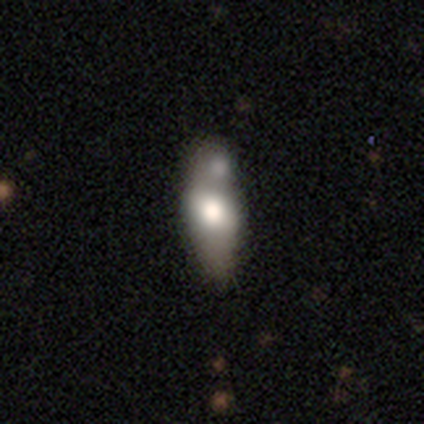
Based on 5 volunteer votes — Q: Smooth or featured?
A: smooth (40%); tied with: featured or disk (40%)
Q: How rounded?
A: in between (50%); tied with: cigar-shaped (50%)
Q: Merging?
A: none (50%); runner-up: major disturbance (25%)